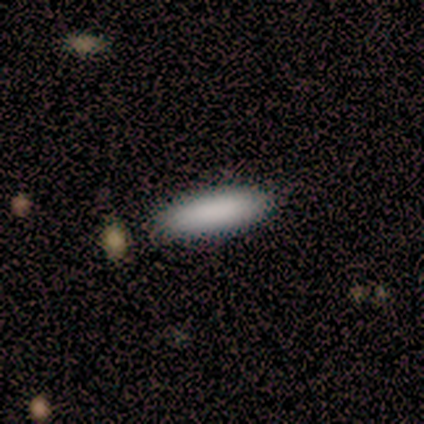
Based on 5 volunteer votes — This is likely a smooth galaxy (60%). How rounded: likely cigar-shaped (67%). Merging: clearly none (100%).